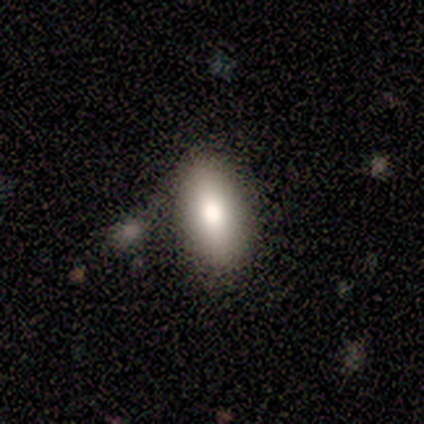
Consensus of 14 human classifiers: Morphology: type=smooth (86%); roundness=in between (100%); merging=none (57%).